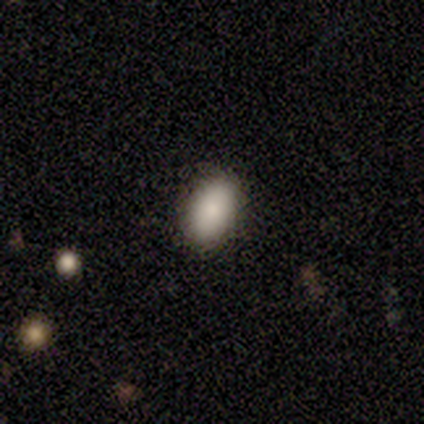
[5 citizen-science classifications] Overall: smooth (60%; star or artifact 40%). How rounded: in between (67%; round 33%). Merging: none (100%).